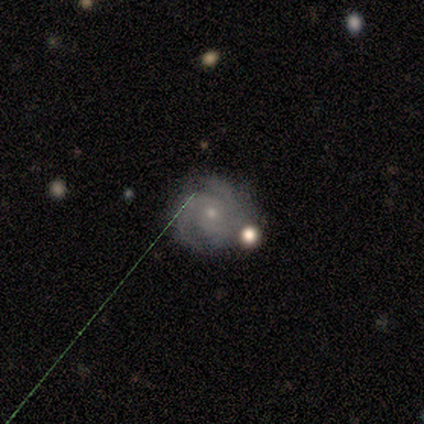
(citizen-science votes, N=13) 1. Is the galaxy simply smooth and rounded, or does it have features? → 62% featured or disk, 23% smooth, 15% star or artifact.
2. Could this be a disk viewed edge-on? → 100% no, 0% yes.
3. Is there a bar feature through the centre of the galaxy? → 100% no, 0% strong, 0% weak.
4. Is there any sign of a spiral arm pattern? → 100% yes, 0% no.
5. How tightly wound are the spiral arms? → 62% medium, 38% tight, 0% loose.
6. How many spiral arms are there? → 38% 2 (tied), 38% 3 (tied), 12% more than 4, 12% can't tell, 0% 1, 0% 4.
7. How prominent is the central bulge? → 100% small, 0% dominant, 0% large, 0% moderate, 0% none.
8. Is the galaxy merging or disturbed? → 64% none, 18% major disturbance, 9% minor disturbance, 9% merger.